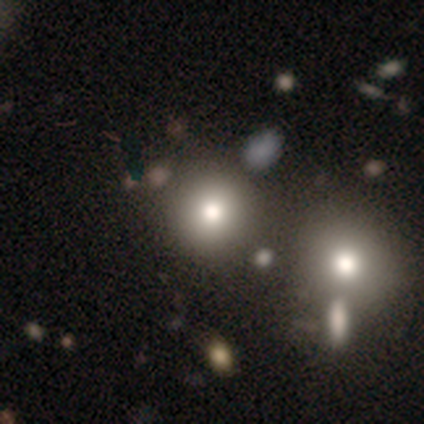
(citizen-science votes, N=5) A featured or disk galaxy (40%, tied with star or artifact) with no bar (100%), no spiral arms (100%) and a moderate central bulge (100%).

Vote fractions:
- Smooth or featured? featured or disk: 40% (tied) / star or artifact: 40% (tied) / smooth: 20%
- Edge-on disk? no: 100% / yes: 0%
- Bar? no: 100% / strong: 0% / weak: 0%
- Spiral arms? no: 100% / yes: 0%
- Bulge size? moderate: 100% / dominant: 0% / large: 0% / small: 0% / none: 0%
- Merging? none: 33% (tied) / minor disturbance: 33% (tied) / merger: 33% (tied) / major disturbance: 0%